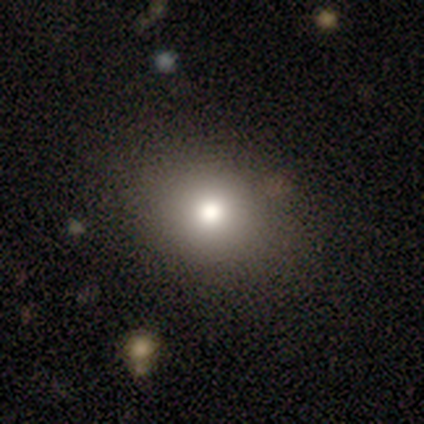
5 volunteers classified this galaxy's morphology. Smooth or featured?
  - smooth: 60% *
  - star or artifact: 40%
  - featured or disk: 0%
How rounded?
  - in between: 67% *
  - round: 33%
  - cigar-shaped: 0%
Merging?
  - none: 67% *
  - minor disturbance: 33%
  - major disturbance: 0%
  - merger: 0%